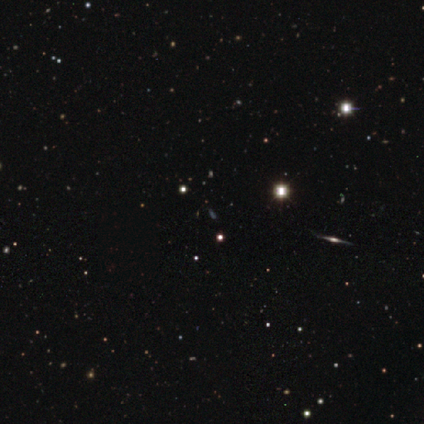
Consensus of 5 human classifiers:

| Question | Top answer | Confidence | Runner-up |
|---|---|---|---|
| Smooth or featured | smooth | 60% | star or artifact (40%) |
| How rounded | in between | 67% | cigar-shaped (33%) |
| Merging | none | 100% | — |